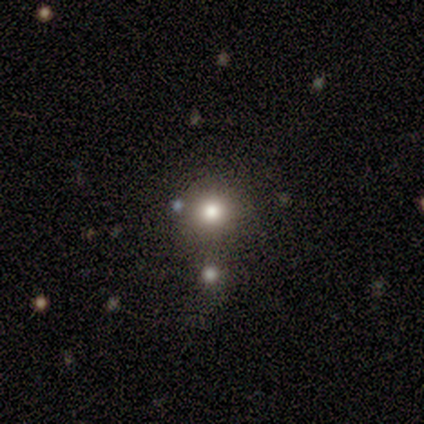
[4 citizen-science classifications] smooth-or-featured: star or artifact: 75% | smooth: 25% | featured or disk: 0%